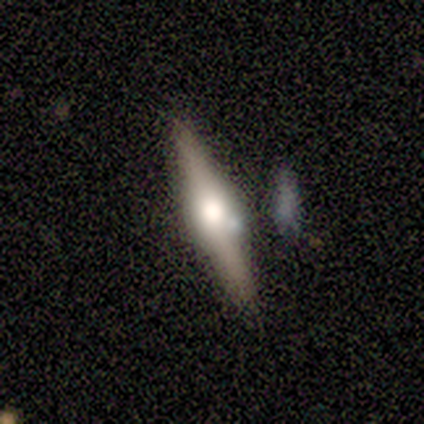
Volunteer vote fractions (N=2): Volunteers were most divided on "smooth or featured" (2-way tie): smooth: 50%, featured or disk: 50%, star or artifact: 0%; "merging" (2-way tie): none: 50%, minor disturbance: 50%, major disturbance: 0%, merger: 0%. More confident: how rounded — cigar-shaped (100%).